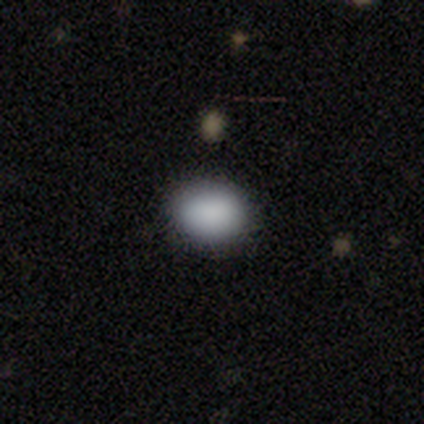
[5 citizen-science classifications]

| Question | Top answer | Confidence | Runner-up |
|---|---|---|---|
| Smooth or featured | smooth | 100% | — |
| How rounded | in between | 60% | round (40%) |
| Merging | none | 80% | minor disturbance (20%) |